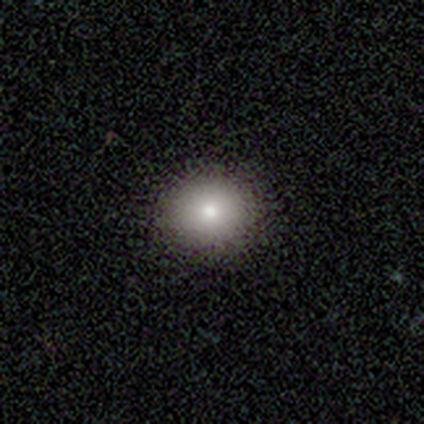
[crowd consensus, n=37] Morphology: type=smooth (76%); roundness=round (82%); merging=none (97%).